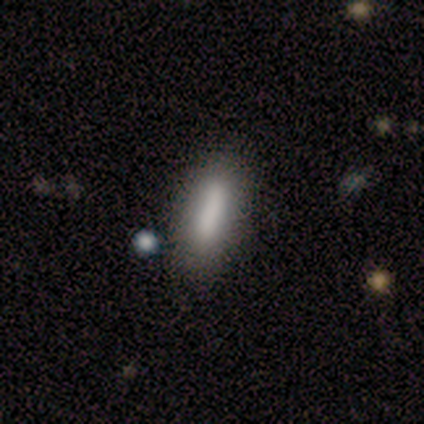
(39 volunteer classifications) smooth 79%, featured or disk 15%, star or artifact 5%. Down the decision tree: how rounded — in between (61%); merging — none (78%).